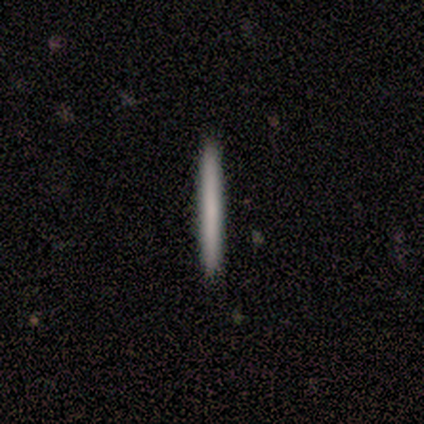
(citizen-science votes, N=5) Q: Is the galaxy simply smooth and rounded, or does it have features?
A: smooth — 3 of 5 (60%).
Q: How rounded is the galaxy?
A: cigar-shaped — 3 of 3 (100%).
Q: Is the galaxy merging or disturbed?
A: none — 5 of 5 (100%).